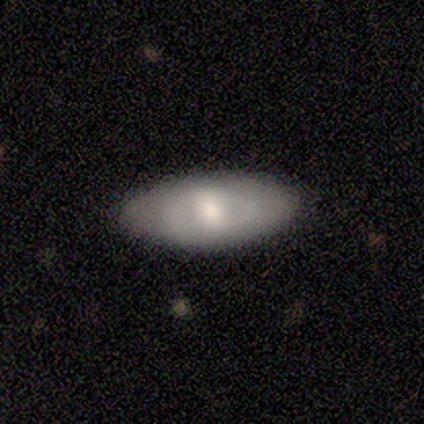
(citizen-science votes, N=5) A smooth galaxy with no disk features (60%) that is in between round and cigar-shaped (100%).

Vote fractions:
- Smooth or featured? smooth: 60% / featured or disk: 40% / star or artifact: 0%
- How rounded? in between: 100% / round: 0% / cigar-shaped: 0%
- Merging? none: 80% / minor disturbance: 20% / major disturbance: 0% / merger: 0%